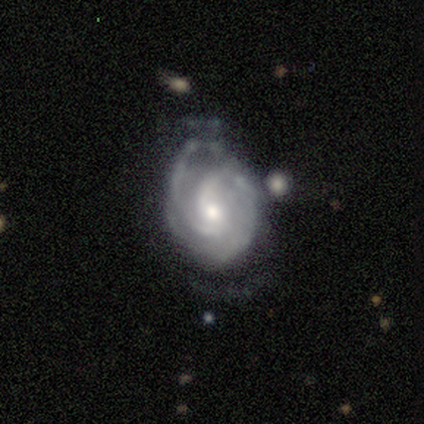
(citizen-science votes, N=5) Overall: featured or disk (100%). Edge-on disk: no (100%). Bar: weak (60%; no 40%). Spiral arms: yes (100%). Spiral arm count: 2 (80%). Spiral winding: medium (80%). Bulge size: small (60%; moderate 40%). Merging: none (100%).